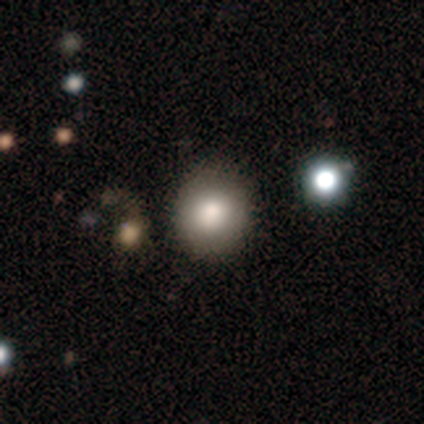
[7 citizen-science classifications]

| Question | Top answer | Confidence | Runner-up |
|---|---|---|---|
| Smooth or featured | smooth | 86% | star or artifact (14%) |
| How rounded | round | 67% | in between (33%) |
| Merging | none | 100% | — |